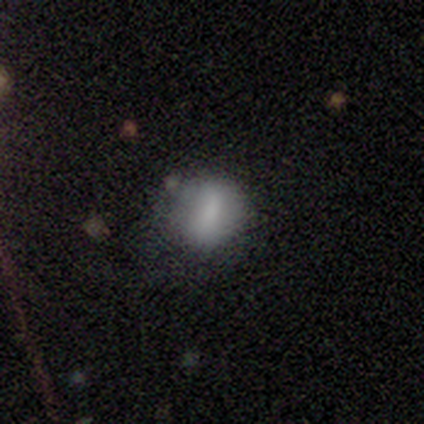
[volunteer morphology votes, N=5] Volunteers were most divided on "smooth or featured": smooth: 80%, featured or disk: 20%, star or artifact: 0%. More confident: how rounded — round (100%); merging — none (100%).